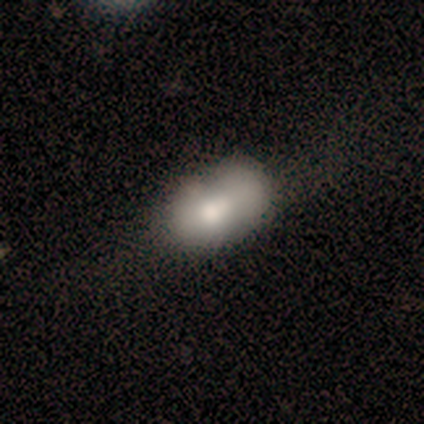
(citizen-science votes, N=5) smooth_or_featured: smooth (p=0.40) [tied with: featured or disk p=0.40]
how_rounded: in between (p=1.00)
merging: none (p=0.75) [alt: major disturbance p=0.25]